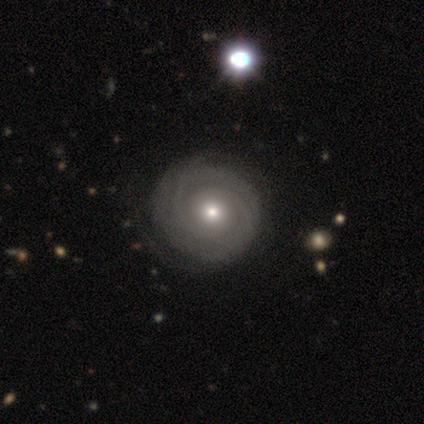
This is clearly a featured or disk galaxy (88%). It is clearly not viewed edge-on (100%). Bar: clearly no (83%). Spiral arm pattern: clearly yes (94%). Spiral arm count: marginally 2 (42%). Spiral winding: clearly tight (94%). Central bulge: likely moderate (60%). Merging: likely none (66%).